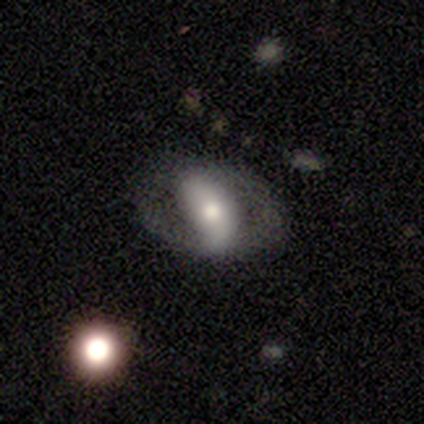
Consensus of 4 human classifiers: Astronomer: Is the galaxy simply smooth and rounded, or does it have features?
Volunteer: featured or disk — 100%.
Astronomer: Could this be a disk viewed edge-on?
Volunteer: no — 75%.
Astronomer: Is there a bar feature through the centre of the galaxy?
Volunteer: strong — 67%.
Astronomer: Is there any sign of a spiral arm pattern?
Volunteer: yes — 67%.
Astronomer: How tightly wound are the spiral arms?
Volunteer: loose — 100%.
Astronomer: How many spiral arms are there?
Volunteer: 2 — 100%.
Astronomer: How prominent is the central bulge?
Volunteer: large — 33%, tied with moderate and small at 33%.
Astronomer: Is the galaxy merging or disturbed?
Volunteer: none — 100%.